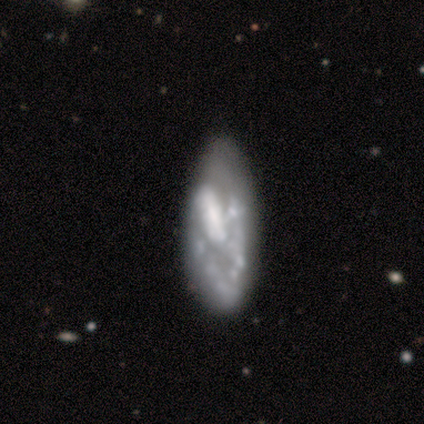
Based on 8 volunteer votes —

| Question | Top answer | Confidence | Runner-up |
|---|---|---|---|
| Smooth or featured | featured or disk | 75% | star or artifact (25%) |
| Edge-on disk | no | 100% | — |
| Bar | no | 67% | strong (17%) |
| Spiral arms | no | 67% | yes (33%) |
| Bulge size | none | 67% | large (17%) |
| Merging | none | 67% | minor disturbance (33%) |